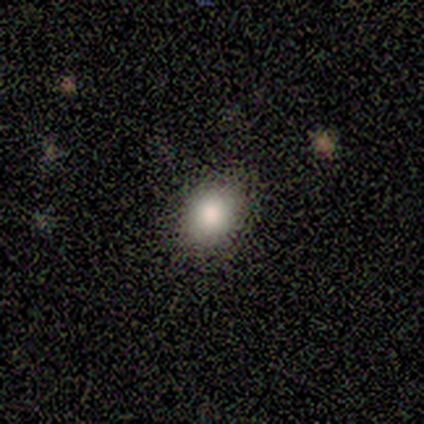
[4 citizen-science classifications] Smooth or featured: smooth — 50% (featured or disk — 25%)
How rounded: round — 50% (tied with in between — 50%)
Merging: none — 100%